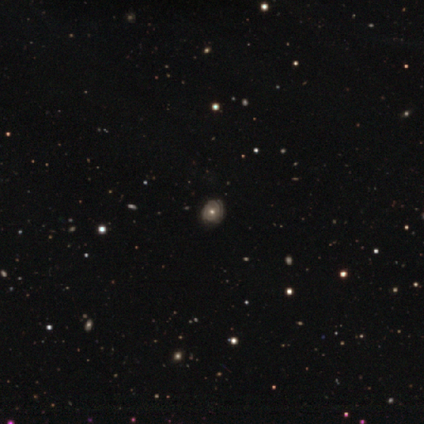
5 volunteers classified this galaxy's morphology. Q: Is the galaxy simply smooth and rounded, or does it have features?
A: featured or disk — 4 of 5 (80%).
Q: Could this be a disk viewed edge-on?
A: no — 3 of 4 (75%).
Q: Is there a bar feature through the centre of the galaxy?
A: no — 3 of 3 (100%).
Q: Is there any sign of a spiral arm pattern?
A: yes — 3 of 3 (100%).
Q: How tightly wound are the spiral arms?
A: medium — 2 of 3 (67%).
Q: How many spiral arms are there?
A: can't tell — 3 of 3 (100%).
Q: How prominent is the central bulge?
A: moderate — 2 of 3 (67%).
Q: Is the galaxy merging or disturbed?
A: none — 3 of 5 (60%).